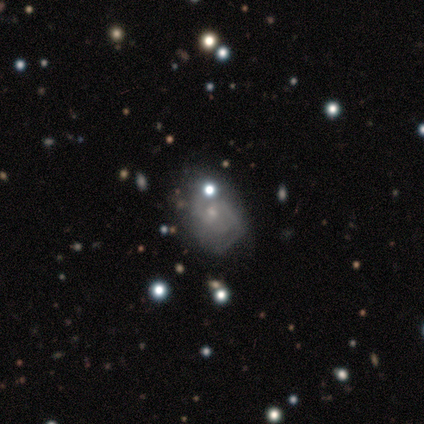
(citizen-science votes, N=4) A featured or disk galaxy (100%) with no bar (75%), tight (75%) spiral arms (100%) and a moderate central bulge (50%, tied with small).

Vote fractions:
- Smooth or featured? featured or disk: 100% / smooth: 0% / star or artifact: 0%
- Edge-on disk? no: 100% / yes: 0%
- Bar? no: 75% / weak: 25% / strong: 0%
- Spiral arms? yes: 100% / no: 0%
- Spiral winding? tight: 75% / medium: 25% / loose: 0%
- Spiral arm count? can't tell: 100% / 1: 0% / 2: 0% / 3: 0% / 4: 0% / more than 4: 0%
- Bulge size? moderate: 50% (tied) / small: 50% (tied) / dominant: 0% / large: 0% / none: 0%
- Merging? none: 50% (tied) / minor disturbance: 50% (tied) / major disturbance: 0% / merger: 0%